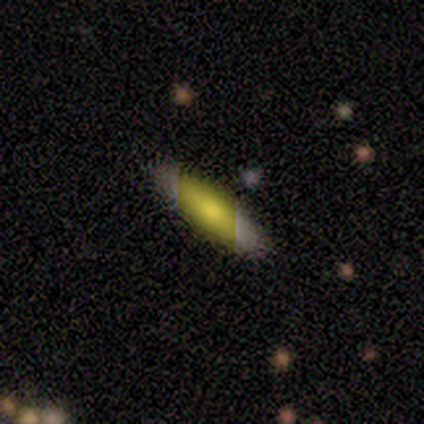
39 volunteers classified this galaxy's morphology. smooth 67%, featured or disk 18%, star or artifact 15%. Down the decision tree: how rounded — cigar-shaped (69%); merging — none (61%).